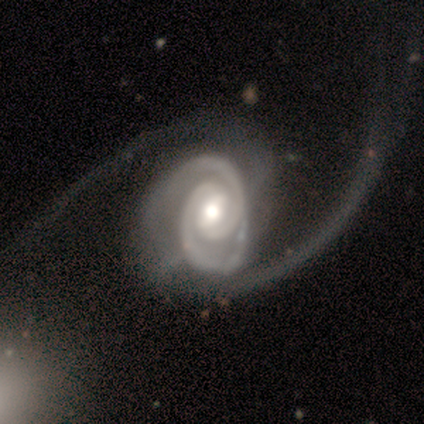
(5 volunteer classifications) Smooth or featured: featured or disk — 100%
Edge-on disk: no — 100%
Bar: weak — 80% (strong — 20%)
Spiral arms: yes — 100%
Spiral winding: tight — 100%
Spiral arm count: 2 — 60% (4 — 20%)
Bulge size: moderate — 40% (dominant — 20%)
Merging: major disturbance — 60% (none — 40%)